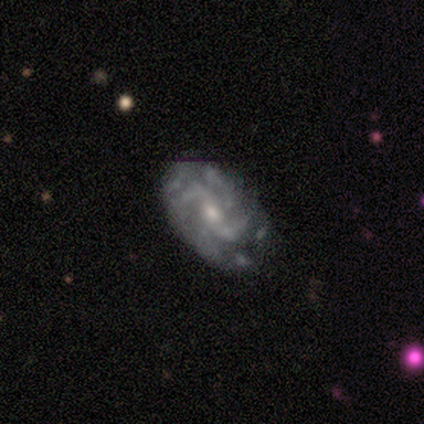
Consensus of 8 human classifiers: Smooth or featured? featured or disk (100%)
Edge-on disk? no (100%)
Bar? no (62%)
Spiral arms? yes (88%)
Spiral winding? medium (43%, tied with loose)
Spiral arm count? 2 (71%)
Bulge size? small (50%)
Merging? none (75%)